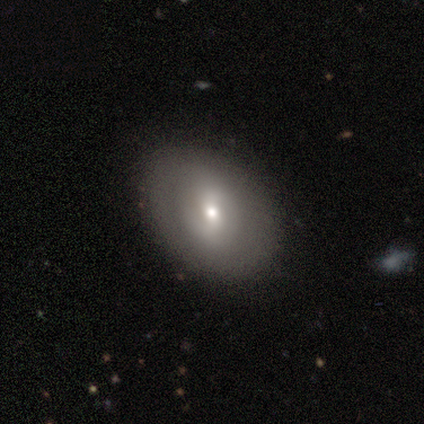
smooth 75%, featured or disk 25%, star or artifact 0%. Down the decision tree: how rounded — in between (100%); merging — none (75%).